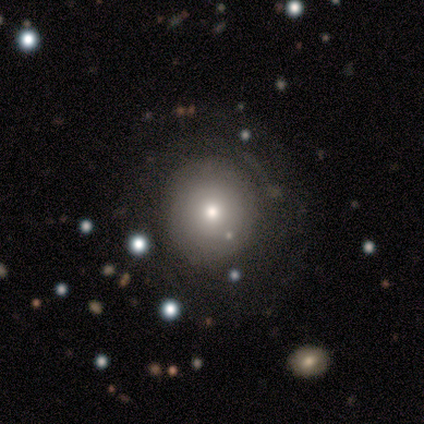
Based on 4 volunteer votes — Smooth or featured?
  - smooth: 50% *
  - featured or disk: 25%
  - star or artifact: 25%
How rounded?
  - round: 100% *
  - in between: 0%
  - cigar-shaped: 0%
Merging?
  - none: 100% *
  - minor disturbance: 0%
  - major disturbance: 0%
  - merger: 0%